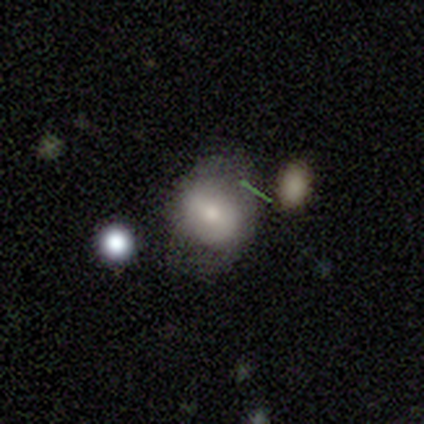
Smooth or featured? smooth (66%)
How rounded? round (58%)
Merging? none (23%)